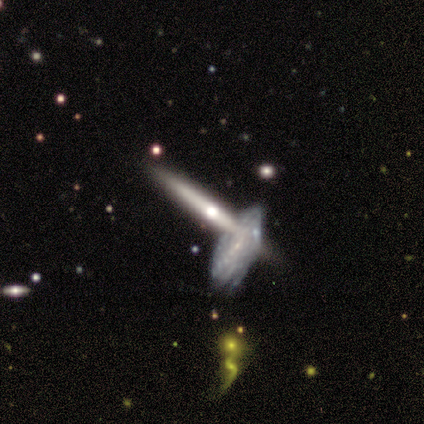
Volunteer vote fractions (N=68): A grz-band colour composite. It shows a featured or disk galaxy (85%) viewed edge-on (86%) with a rounded central bulge (86%). Merging: none (56%).